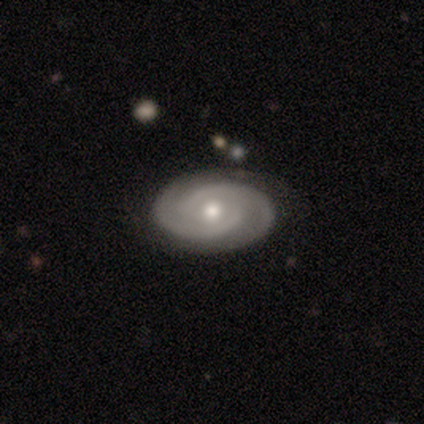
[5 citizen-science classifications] Q: Smooth or featured?
A: featured or disk (100%)
Q: Edge-on disk?
A: no (100%)
Q: Bar?
A: no (100%)
Q: Spiral arms?
A: yes (100%)
Q: Spiral winding?
A: tight (60%); runner-up: medium (40%)
Q: Spiral arm count?
A: 2 (100%)
Q: Bulge size?
A: moderate (60%); runner-up: large (20%)
Q: Merging?
A: none (80%); runner-up: minor disturbance (20%)